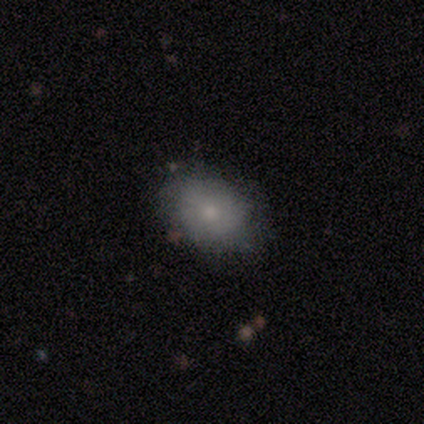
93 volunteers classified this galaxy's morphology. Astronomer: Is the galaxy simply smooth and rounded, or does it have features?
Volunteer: smooth — 73%.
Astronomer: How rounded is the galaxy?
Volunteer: in between — 72%.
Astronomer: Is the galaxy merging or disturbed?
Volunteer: none — 69%.